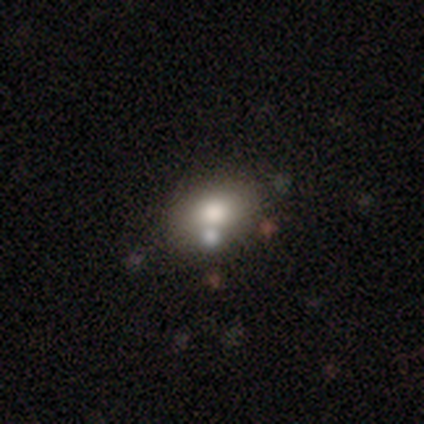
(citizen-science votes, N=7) Smooth or featured?
  - smooth: 71% *
  - featured or disk: 29%
  - star or artifact: 0%
How rounded?
  - in between: 100% *
  - round: 0%
  - cigar-shaped: 0%
Merging?
  - none: 57% *
  - minor disturbance: 29%
  - merger: 14%
  - major disturbance: 0%